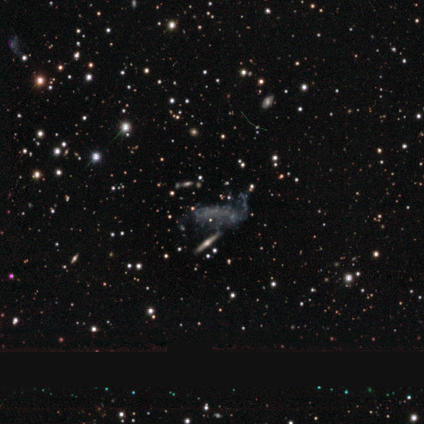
Smooth or featured: featured or disk — 61% (star or artifact — 29%)
Edge-on disk: no — 94% (yes — 6%)
Bar: no — 88% (strong — 6%)
Spiral arms: no — 75% (yes — 25%)
Bulge size: none — 88% (large — 6%)
Merging: none — 45% (minor disturbance — 20%)